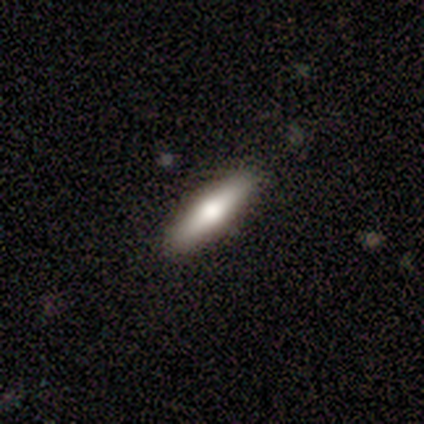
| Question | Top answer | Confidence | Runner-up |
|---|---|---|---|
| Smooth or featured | smooth | 56% | featured or disk (26%) |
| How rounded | cigar-shaped | 77% | in between (23%) |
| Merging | none | 94% | minor disturbance (6%) |